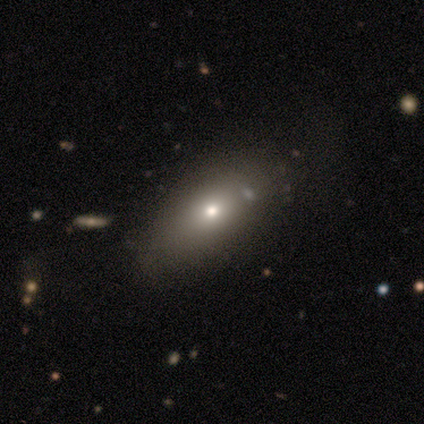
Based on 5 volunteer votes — Smooth or featured? 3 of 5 (60%) said smooth. How rounded? 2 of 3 (67%) said in between. Merging? 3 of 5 (60%) said none.